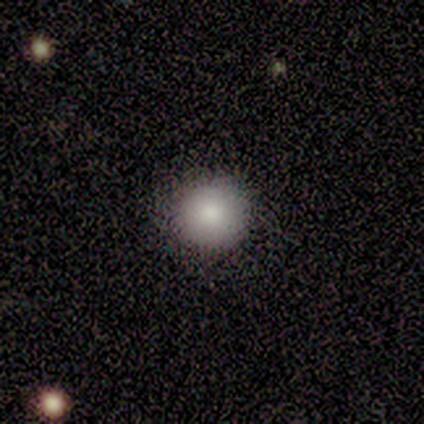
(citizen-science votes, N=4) Overall: smooth (50%, tied with featured or disk). How rounded: round (100%). Merging: none (100%).